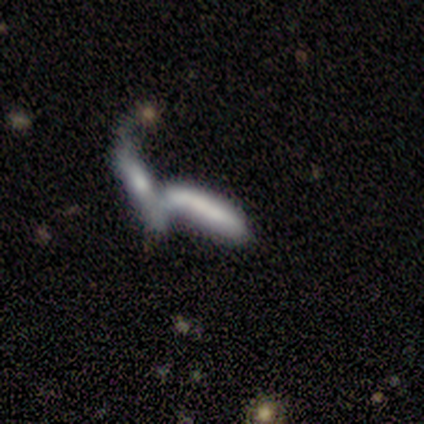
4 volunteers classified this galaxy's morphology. Overall: smooth (75%). How rounded: cigar-shaped (100%). Merging: merger (75%).